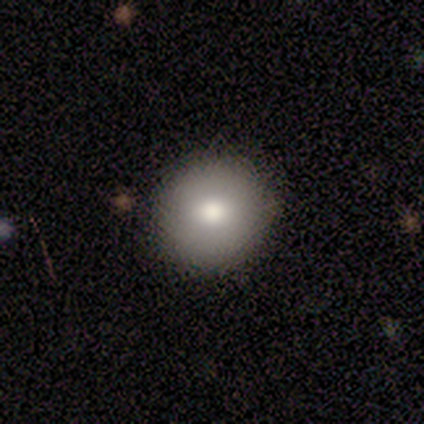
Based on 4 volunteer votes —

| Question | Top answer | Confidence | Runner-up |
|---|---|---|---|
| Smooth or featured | smooth | 100% | — |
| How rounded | round | 100% | — |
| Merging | none | 75% | merger (25%) |